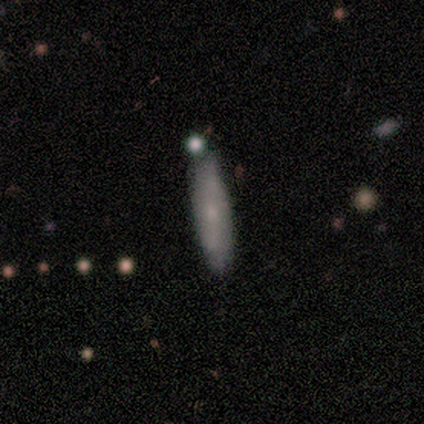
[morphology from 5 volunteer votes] A smooth galaxy with no disk features (80%) that is cigar-shaped (75%).

Vote fractions:
- Smooth or featured? smooth: 80% / featured or disk: 20% / star or artifact: 0%
- How rounded? cigar-shaped: 75% / in between: 25% / round: 0%
- Merging? none: 40% (tied) / merger: 40% (tied) / minor disturbance: 20% / major disturbance: 0%